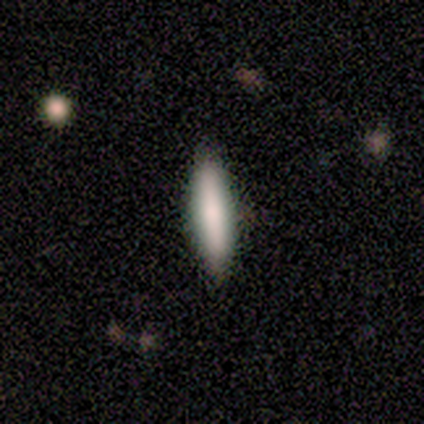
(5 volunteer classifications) This is clearly a smooth galaxy (80%). How rounded: likely cigar-shaped (75%). Merging: clearly none (80%).